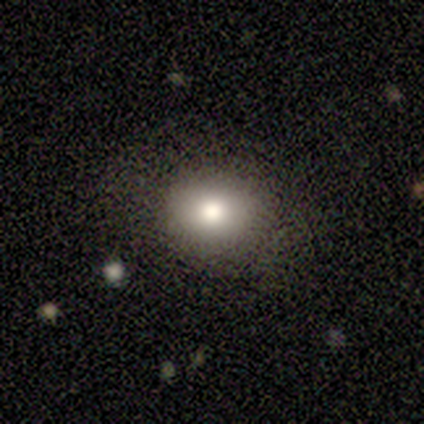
Smooth or featured? 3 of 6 (50%, tied with featured or disk) said smooth. How rounded? 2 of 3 (67%) said round. Merging? 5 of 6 (83%) said none.